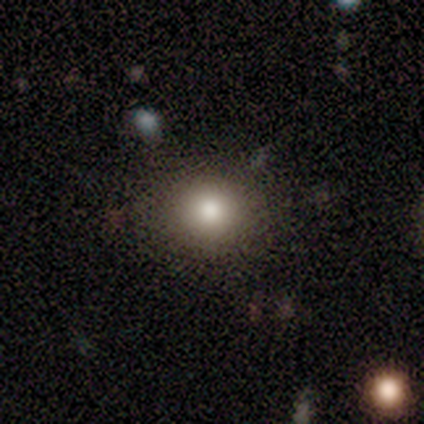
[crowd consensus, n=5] smooth 80%, featured or disk 20%, star or artifact 0%. Down the decision tree: how rounded — round (100%); merging — none (100%).